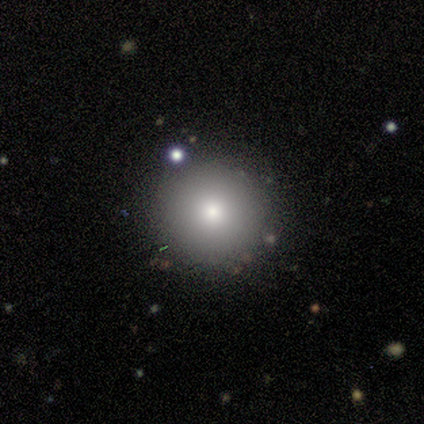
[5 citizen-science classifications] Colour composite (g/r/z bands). It shows a smooth galaxy with no disk features (40%, tied with featured or disk) that is round (100%). Merging: none (75%).